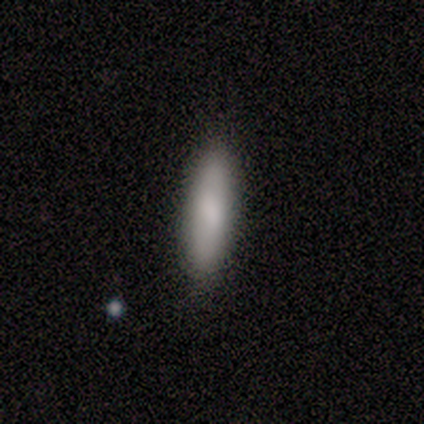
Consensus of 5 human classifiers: Smooth or featured? smooth (80%)
How rounded? cigar-shaped (75%)
Merging? none (100%)